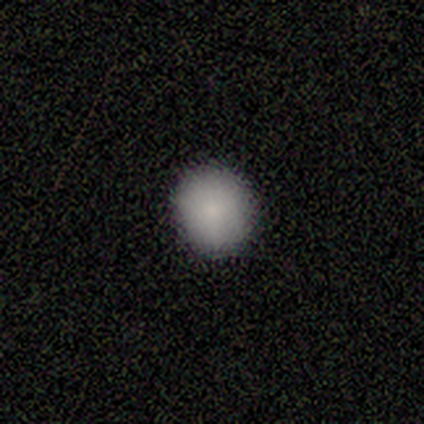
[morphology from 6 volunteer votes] smooth-or-featured: smooth: 83% | star or artifact: 17% | featured or disk: 0%
  how-rounded: round: 100% | in between: 0% | cigar-shaped: 0%
  merging: none: 100% | minor disturbance: 0% | major disturbance: 0% | merger: 0%